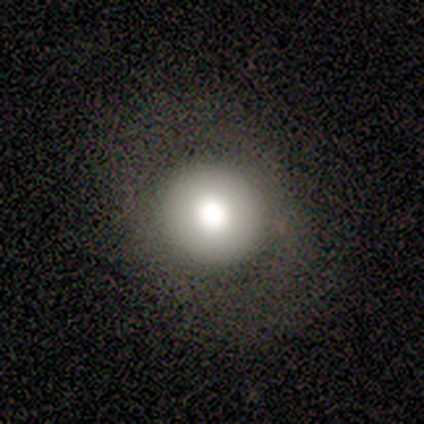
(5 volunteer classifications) smooth_or_featured: smooth (p=0.60) [alt: featured or disk p=0.20]
how_rounded: round (p=0.67) [alt: in between p=0.33]
merging: none (p=1.00)